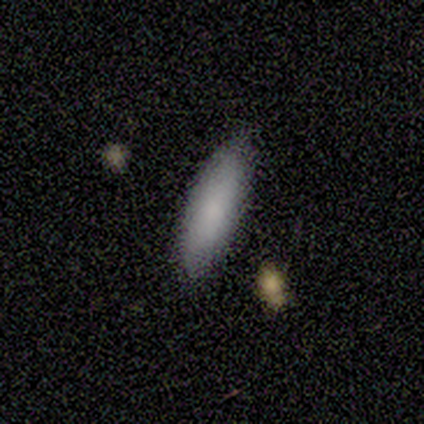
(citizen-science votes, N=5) Smooth or featured? 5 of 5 (100%) said smooth. How rounded? 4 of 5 (80%) said in between. Merging? 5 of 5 (100%) said none.